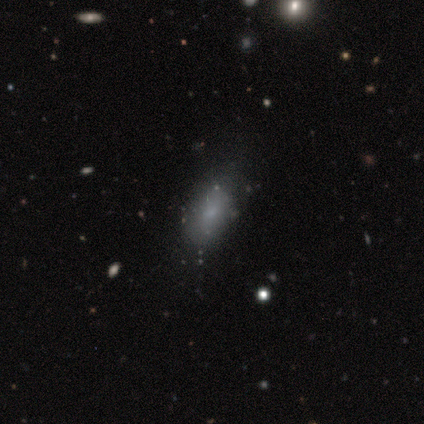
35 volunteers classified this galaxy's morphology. Volunteers were most divided on "merging": none: 59%, minor disturbance: 37%, major disturbance: 4%, merger: 0%. More confident: how rounded — in between (90%); smooth or featured — smooth (60%).